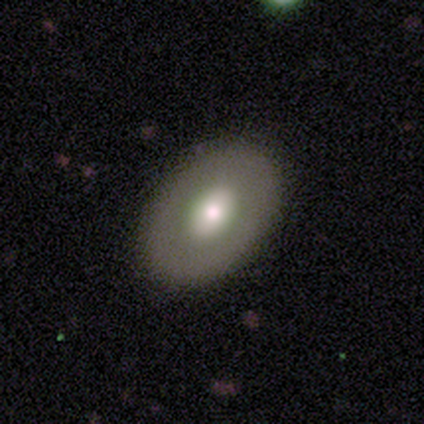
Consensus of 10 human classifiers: Smooth or featured? 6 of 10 (60%) said featured or disk. Edge-on disk? 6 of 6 (100%) said no. Bar? 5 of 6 (83%) said no. Spiral arms? 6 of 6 (100%) said no. Bulge size? 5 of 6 (83%) said moderate. Merging? 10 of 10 (100%) said none.